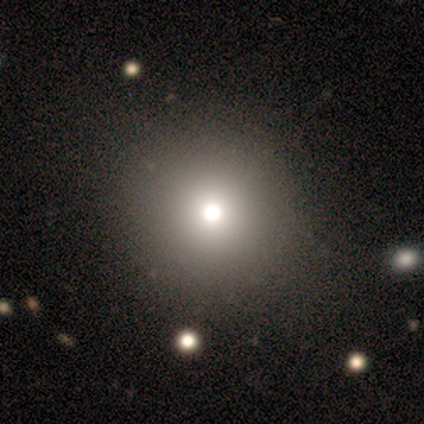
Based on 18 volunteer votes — Smooth or featured?
  - smooth: 56% *
  - featured or disk: 22%
  - star or artifact: 22%
How rounded?
  - round: 100% *
  - in between: 0%
  - cigar-shaped: 0%
Merging?
  - none: 86% *
  - minor disturbance: 7%
  - major disturbance: 7%
  - merger: 0%